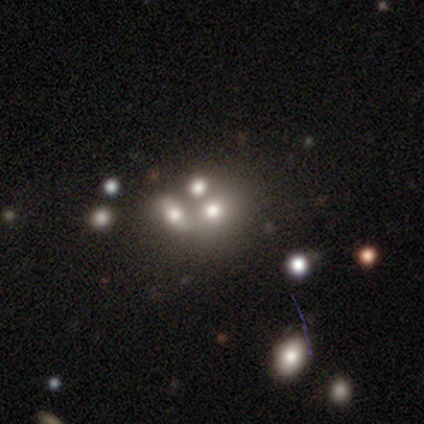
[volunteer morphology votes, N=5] This is marginally a featured or disk galaxy (40%, tied with star or artifact). It is clearly not viewed edge-on (100%). Bar: clearly no (100%). Spiral arm pattern: clearly no (100%). Central bulge: clearly moderate (100%). Merging: marginally none (33%, tied with minor disturbance and merger).